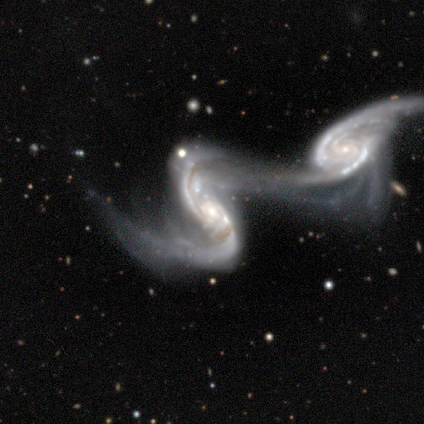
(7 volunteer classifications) Smooth or featured? 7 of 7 (100%) said featured or disk. Edge-on disk? 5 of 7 (71%) said no. Bar? 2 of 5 (40%, tied with weak) said strong. Spiral arms? 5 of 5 (100%) said yes. Spiral winding? 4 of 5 (80%) said loose. Spiral arm count? 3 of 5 (60%) said 2. Bulge size? 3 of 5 (60%) said moderate. Merging? 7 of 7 (100%) said merger.